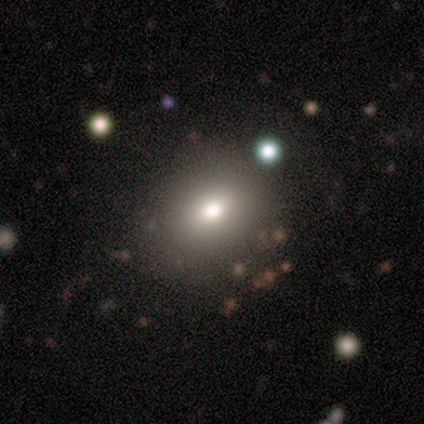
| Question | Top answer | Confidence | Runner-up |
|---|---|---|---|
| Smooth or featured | smooth | 60% | featured or disk (40%) |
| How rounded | in between | 67% | round (33%) |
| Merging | none | 60% | minor disturbance (40%) |